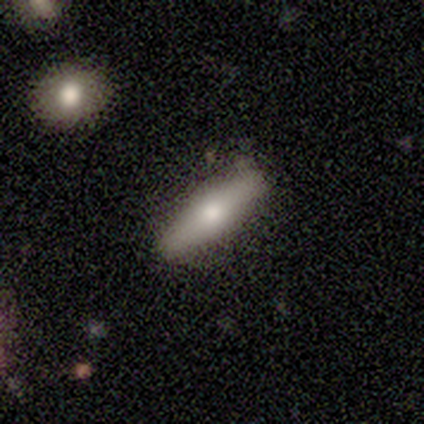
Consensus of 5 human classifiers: Volunteers were most divided on "how rounded": cigar-shaped: 75%, in between: 25%, round: 0%. More confident: merging — none (100%); smooth or featured — smooth (80%).